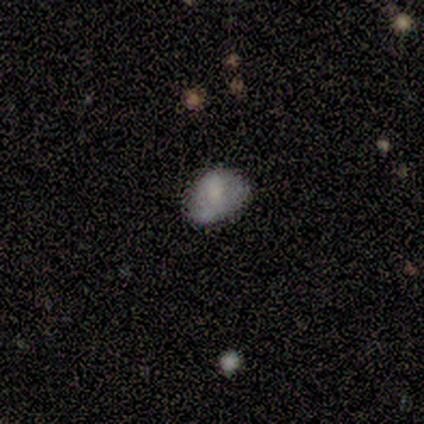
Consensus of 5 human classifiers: Smooth or featured: smooth — 80% (star or artifact — 20%)
How rounded: in between — 75% (round — 25%)
Merging: none — 100%